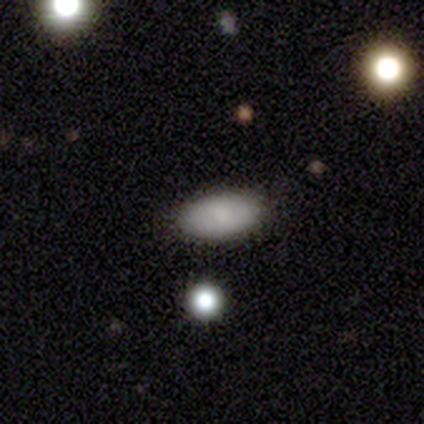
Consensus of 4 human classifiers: Q: Smooth or featured?
A: smooth (75%); runner-up: featured or disk (25%)
Q: How rounded?
A: in between (100%)
Q: Merging?
A: none (100%)